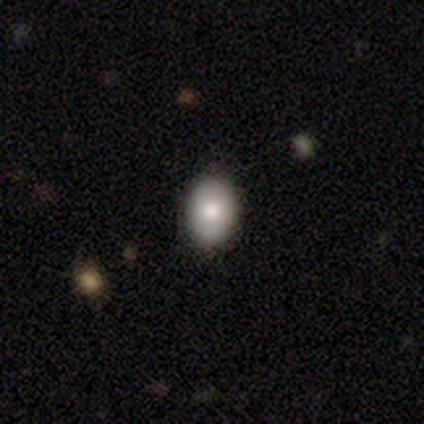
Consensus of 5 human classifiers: smooth 100%, featured or disk 0%, star or artifact 0%. Down the decision tree: how rounded — in between (60%); merging — none (100%).